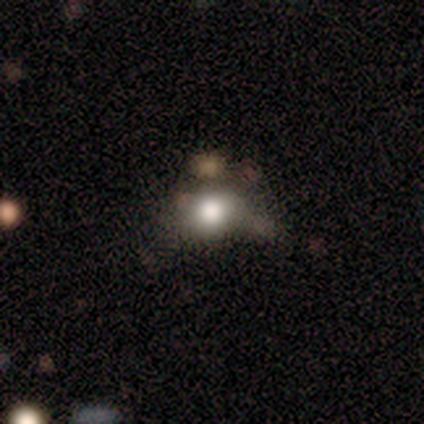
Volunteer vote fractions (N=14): smooth_or_featured: smooth (p=0.64) [alt: star or artifact p=0.29]
how_rounded: round (p=0.89) [alt: in between p=0.11]
merging: none (p=0.40) [tied with: merger p=0.40]